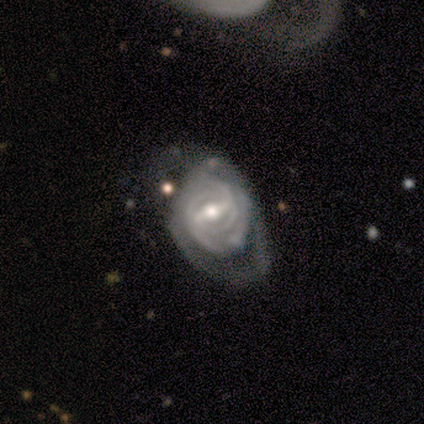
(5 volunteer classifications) This is clearly a featured or disk galaxy (100%). It is clearly not viewed edge-on (100%). Bar: clearly strong (80%). Spiral arm pattern: clearly yes (100%). Spiral arm count: likely can't tell (60%). Spiral winding: clearly tight (80%). Central bulge: clearly moderate (100%). Merging: likely none (60%).